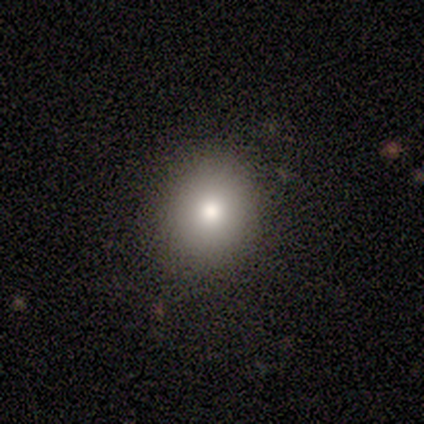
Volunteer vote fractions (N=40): smooth-or-featured: smooth: 82% | featured or disk: 15% | star or artifact: 2%
  how-rounded: round: 91% | in between: 9% | cigar-shaped: 0%
  merging: none: 90% | minor disturbance: 5% | major disturbance: 5% | merger: 0%